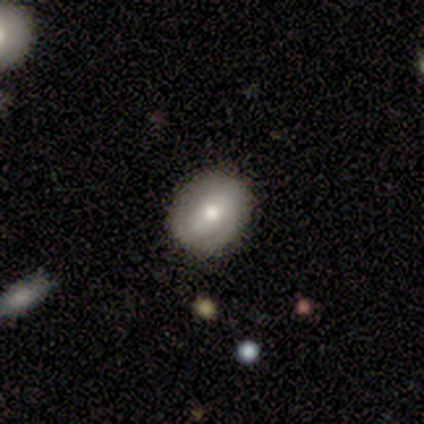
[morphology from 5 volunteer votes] smooth_or_featured: smooth (p=0.60) [alt: featured or disk p=0.40]
how_rounded: in between (p=0.67) [alt: round p=0.33]
merging: none (p=1.00)